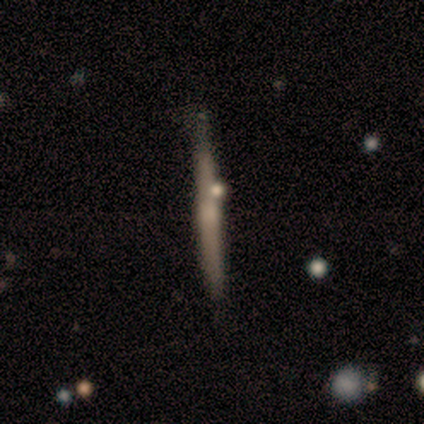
featured or disk 80%, smooth 20%, star or artifact 0%. Down the decision tree: edge-on disk — yes (100%); edge-on bulge — none (50%, tied with rounded); merging — none (80%).